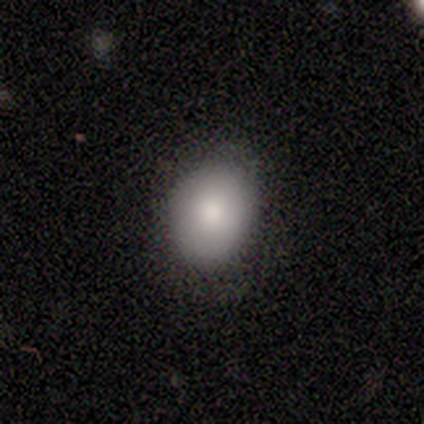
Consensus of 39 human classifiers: smooth_or_featured: smooth (p=0.87) [alt: star or artifact p=0.08]
how_rounded: in between (p=0.62) [alt: round p=0.35]
merging: none (p=0.58) [alt: minor disturbance p=0.39]